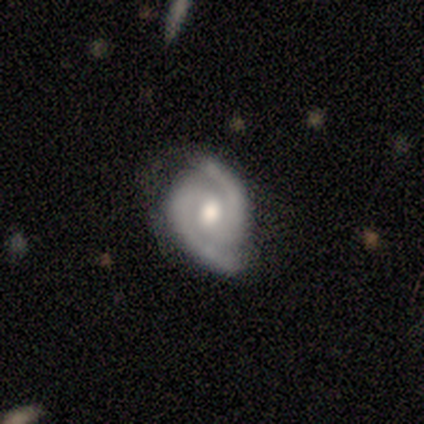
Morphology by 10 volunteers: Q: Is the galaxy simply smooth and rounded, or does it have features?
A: featured or disk — 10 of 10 (100%).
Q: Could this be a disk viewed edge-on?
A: no — 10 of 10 (100%).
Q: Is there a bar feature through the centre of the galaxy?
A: no — 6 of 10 (60%).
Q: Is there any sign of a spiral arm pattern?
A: yes — 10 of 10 (100%).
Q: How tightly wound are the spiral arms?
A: tight — 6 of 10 (60%).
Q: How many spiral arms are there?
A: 2 — 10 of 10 (100%).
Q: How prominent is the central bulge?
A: moderate — 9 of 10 (90%).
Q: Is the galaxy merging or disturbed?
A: none — 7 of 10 (70%).